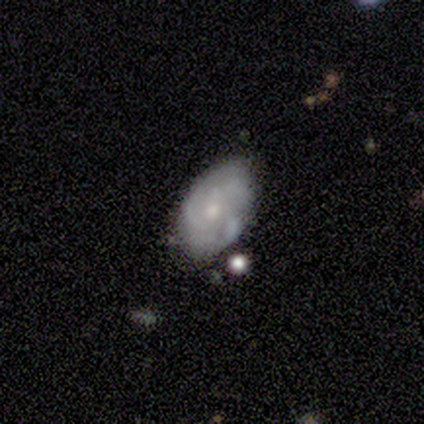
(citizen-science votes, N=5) smooth 60%, featured or disk 40%, star or artifact 0%. Down the decision tree: how rounded — in between (100%); merging — none (40%, tied with minor disturbance).